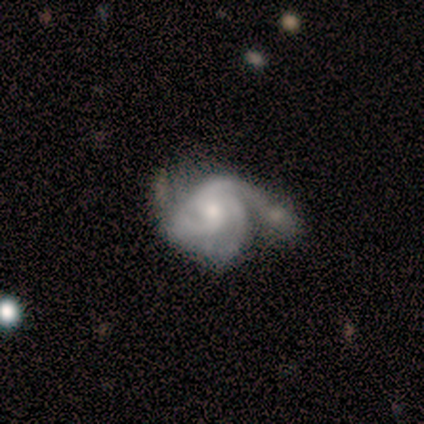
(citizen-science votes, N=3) featured or disk 100%, smooth 0%, star or artifact 0%. Down the decision tree: edge-on disk — no (100%); bar — no (67%); spiral arms — yes (100%); spiral arm count — 3 (100%); spiral winding — medium (67%); bulge size — small (67%); merging — none (33%, tied with minor disturbance and major disturbance).